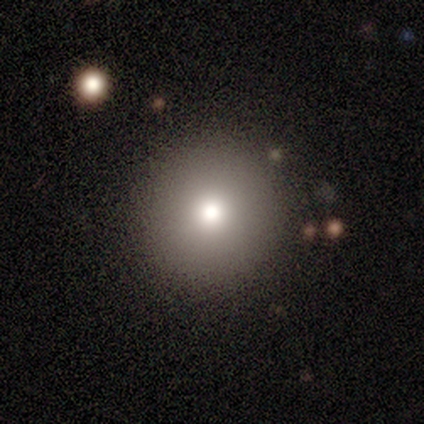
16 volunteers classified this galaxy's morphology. Smooth or featured? 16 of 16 (100%) said smooth. How rounded? 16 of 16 (100%) said round. Merging? 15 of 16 (94%) said none.